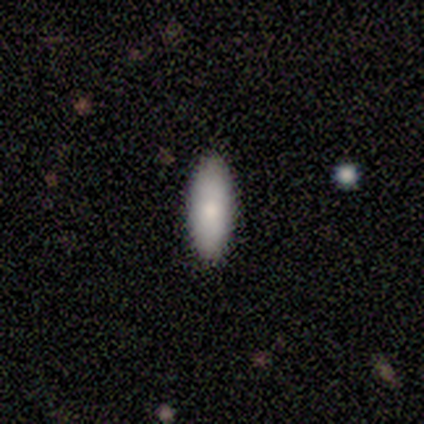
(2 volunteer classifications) A smooth galaxy with no disk features (100%) that is in between round and cigar-shaped (50%, tied with cigar-shaped).

Vote fractions:
- Smooth or featured? smooth: 100% / featured or disk: 0% / star or artifact: 0%
- How rounded? in between: 50% (tied) / cigar-shaped: 50% (tied) / round: 0%
- Merging? none: 100% / minor disturbance: 0% / major disturbance: 0% / merger: 0%